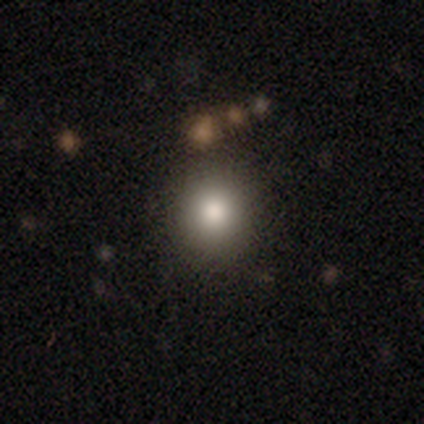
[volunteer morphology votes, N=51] smooth-or-featured: smooth: 82% | star or artifact: 14% | featured or disk: 4%
  how-rounded: round: 86% | in between: 12% | cigar-shaped: 2%
  merging: none: 91% | minor disturbance: 7% | major disturbance: 2% | merger: 0%